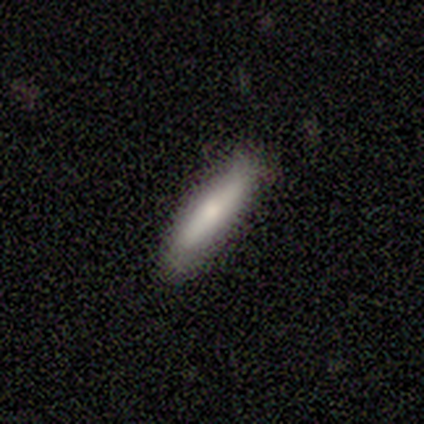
Smooth or featured? 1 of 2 (50%, tied with featured or disk) said smooth. How rounded? 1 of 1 (100%) said cigar-shaped. Merging? 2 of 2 (100%) said none.